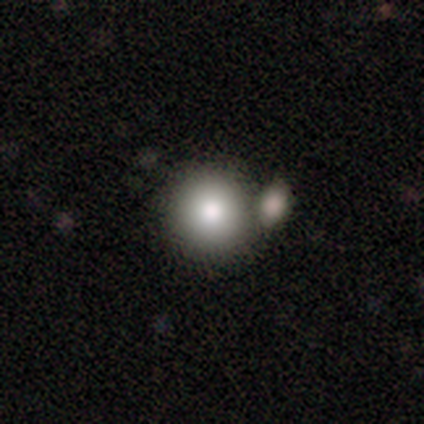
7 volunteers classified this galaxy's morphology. smooth_or_featured: smooth (p=0.71) [alt: featured or disk p=0.14]
how_rounded: round (p=0.80) [alt: in between p=0.20]
merging: merger (p=0.50) [alt: none p=0.33]